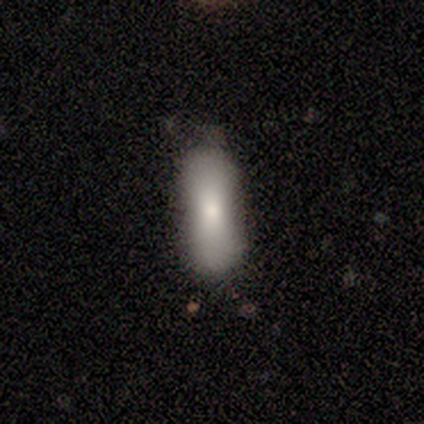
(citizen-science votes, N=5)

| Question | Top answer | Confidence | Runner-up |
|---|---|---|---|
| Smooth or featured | smooth | 80% | featured or disk (20%) |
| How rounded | in between | 75% | cigar-shaped (25%) |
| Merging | none | 80% | major disturbance (20%) |